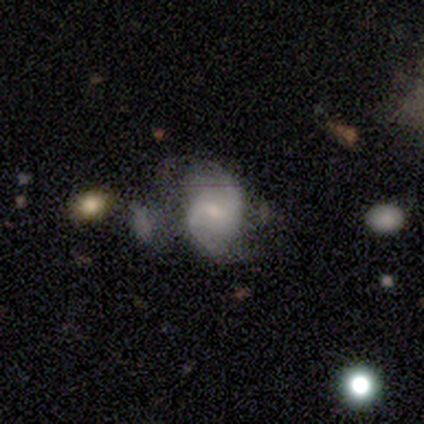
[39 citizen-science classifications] This is likely a featured or disk galaxy (77%). It is clearly not viewed edge-on (100%). Bar: likely weak (67%). Spiral arm pattern: clearly yes (100%). Spiral arm count: clearly 2 (90%). Spiral winding: possibly loose (50%). Central bulge: possibly small (47%). Merging: marginally minor disturbance (37%).